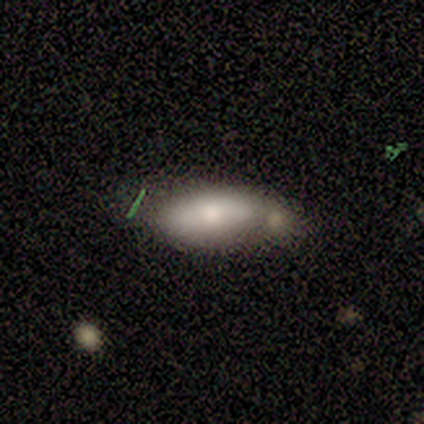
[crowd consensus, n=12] A smooth galaxy with no disk features (83%) that is in between round and cigar-shaped (100%). Merging: none (42%).